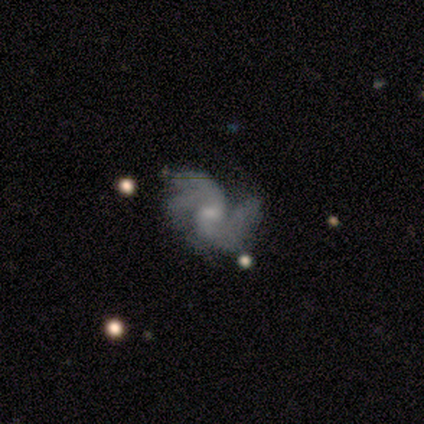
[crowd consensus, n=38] Volunteers were most divided on "spiral arm count": 2: 48%, 3: 32%, 4: 13%, can't tell: 6%, 1: 0%, more than 4: 0%. More confident: edge-on disk — no (97%); spiral arms — yes (94%); smooth or featured — featured or disk (89%); merging — none (58%); bulge size — small (58%); spiral winding — medium (55%); bar — no (55%).